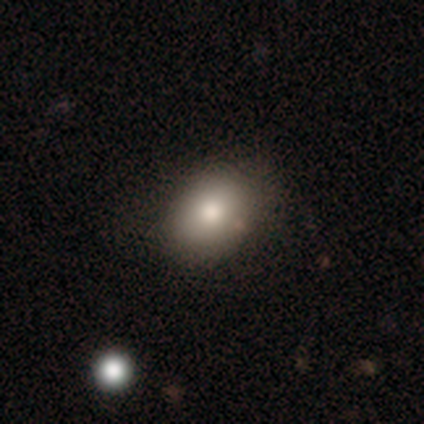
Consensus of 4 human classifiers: smooth-or-featured: smooth: 100% | featured or disk: 0% | star or artifact: 0%
  how-rounded: in between: 100% | round: 0% | cigar-shaped: 0%
  merging: none: 100% | minor disturbance: 0% | major disturbance: 0% | merger: 0%